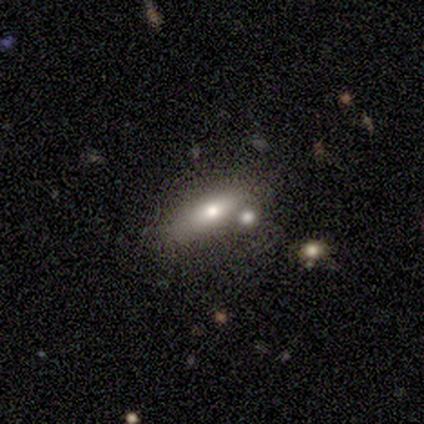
A smooth galaxy with no disk features (60%) that is cigar-shaped (67%). Merging: merger (40%).